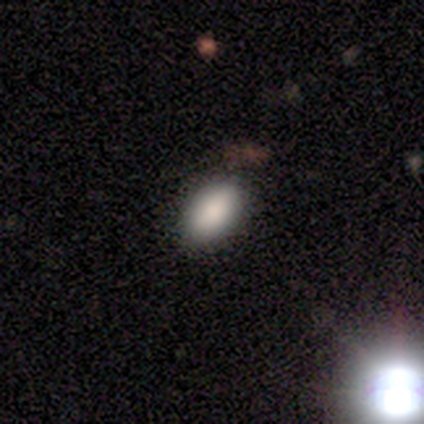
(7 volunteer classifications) A smooth galaxy with no disk features (86%) that is in between round and cigar-shaped (100%).

Vote fractions:
- Smooth or featured? smooth: 86% / featured or disk: 14% / star or artifact: 0%
- How rounded? in between: 100% / round: 0% / cigar-shaped: 0%
- Merging? none: 57% / minor disturbance: 29% / merger: 14% / major disturbance: 0%